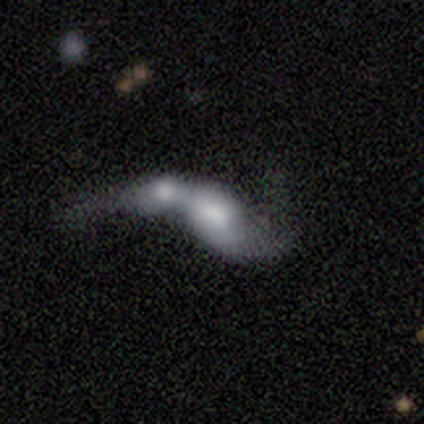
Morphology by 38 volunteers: This is possibly a smooth galaxy (47%, tied with featured or disk). How rounded: likely in between (72%). Merging: likely merger (67%).